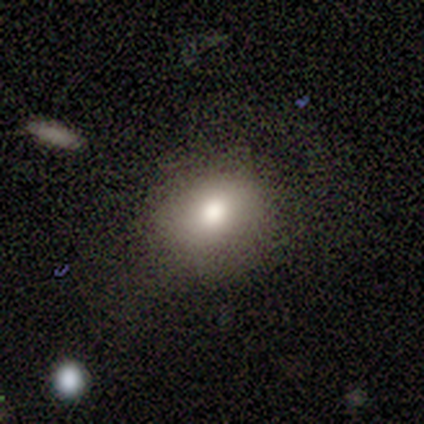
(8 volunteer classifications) smooth_or_featured: smooth (p=0.75) [alt: featured or disk p=0.25]
how_rounded: in between (p=0.67) [alt: round p=0.33]
merging: none (p=0.75) [alt: minor disturbance p=0.12]